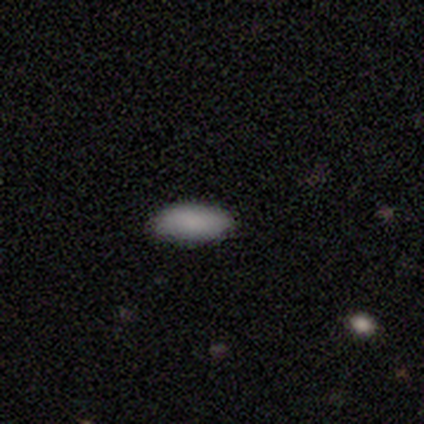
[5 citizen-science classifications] Smooth or featured?
  - smooth: 80% *
  - star or artifact: 20%
  - featured or disk: 0%
How rounded?
  - in between: 100% *
  - round: 0%
  - cigar-shaped: 0%
Merging?
  - none: 100% *
  - minor disturbance: 0%
  - major disturbance: 0%
  - merger: 0%